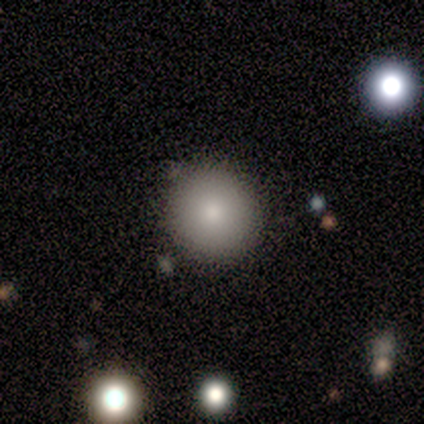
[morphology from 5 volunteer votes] smooth-or-featured: smooth: 100% | featured or disk: 0% | star or artifact: 0%
  how-rounded: round: 80% | in between: 20% | cigar-shaped: 0%
  merging: none: 80% | minor disturbance: 20% | major disturbance: 0% | merger: 0%